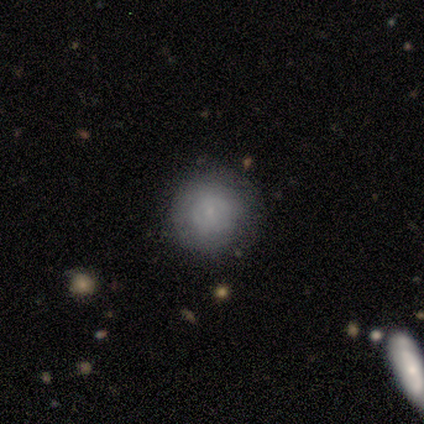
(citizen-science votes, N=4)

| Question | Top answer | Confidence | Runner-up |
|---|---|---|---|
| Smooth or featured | smooth | 75% | featured or disk (25%) |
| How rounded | round | 100% | — |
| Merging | none | 50% | tied: minor disturbance (50%) |